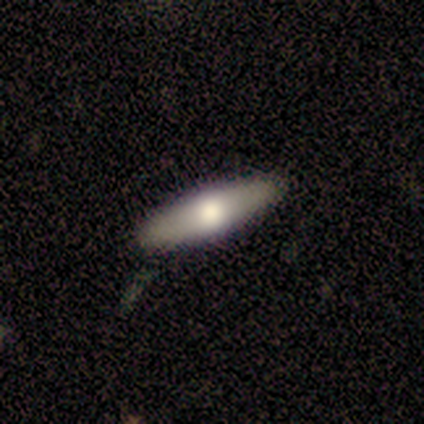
A featured or disk galaxy (60%) viewed edge-on (67%) with a rounded central bulge (100%). Merging: none (80%).